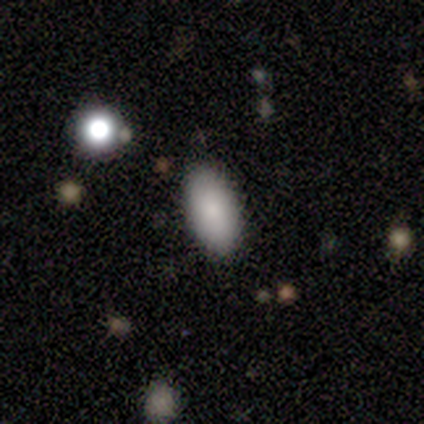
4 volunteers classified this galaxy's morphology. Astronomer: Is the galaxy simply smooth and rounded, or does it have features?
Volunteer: smooth — 100%.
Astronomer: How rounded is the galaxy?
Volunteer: in between — 100%.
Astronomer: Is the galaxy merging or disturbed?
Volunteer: none — 100%.